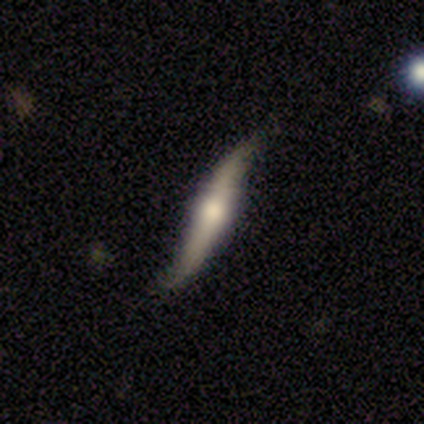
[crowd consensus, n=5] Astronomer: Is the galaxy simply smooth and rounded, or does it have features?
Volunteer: featured or disk — 100%.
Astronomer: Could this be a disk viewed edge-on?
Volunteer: no — 60% (runner-up: yes, 40%).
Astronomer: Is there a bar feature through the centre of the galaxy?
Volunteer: strong — 67%.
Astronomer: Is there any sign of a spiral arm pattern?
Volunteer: yes — 100%.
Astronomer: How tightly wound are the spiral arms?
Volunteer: loose — 100%.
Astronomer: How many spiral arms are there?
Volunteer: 2 — 100%.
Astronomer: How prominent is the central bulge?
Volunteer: moderate — 67%.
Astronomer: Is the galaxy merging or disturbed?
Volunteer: minor disturbance — 60%.